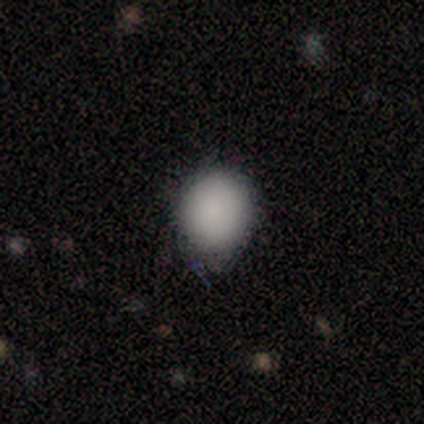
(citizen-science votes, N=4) Smooth or featured? 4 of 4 (100%) said smooth. How rounded? 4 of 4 (100%) said round. Merging? 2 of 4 (50%) said none.